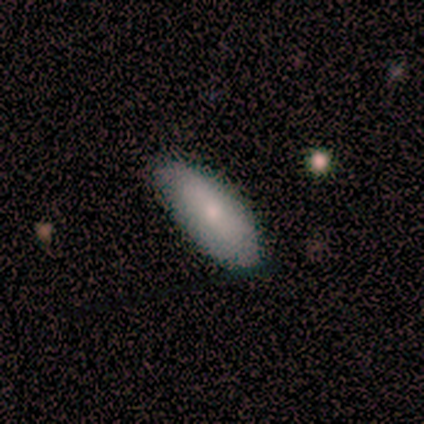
Morphology: type=smooth (100%); roundness=in between (100%); merging=none (80%).